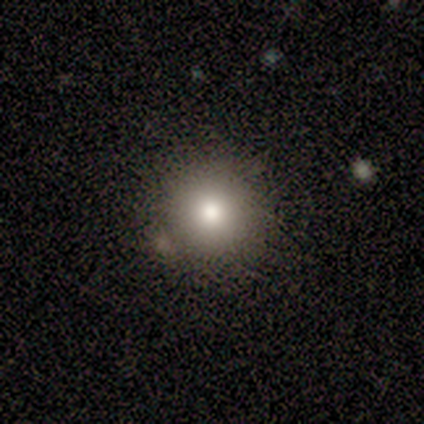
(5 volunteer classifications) smooth_or_featured: smooth (p=0.60) [alt: featured or disk p=0.40]
how_rounded: round (p=1.00)
merging: none (p=0.60) [alt: minor disturbance p=0.20]